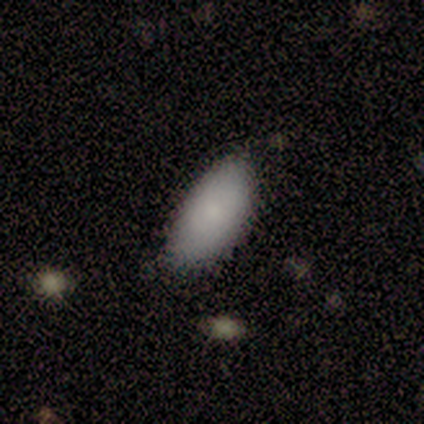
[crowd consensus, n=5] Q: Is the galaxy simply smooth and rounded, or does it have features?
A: smooth — 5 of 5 (100%).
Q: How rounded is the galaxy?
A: in between — 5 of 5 (100%).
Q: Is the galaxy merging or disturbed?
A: none — 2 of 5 (40%, tied with minor disturbance).